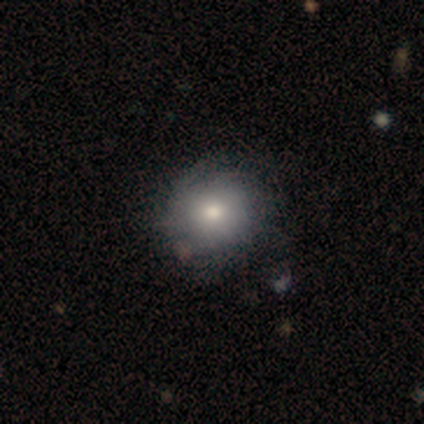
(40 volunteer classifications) Morphology: type=smooth (62%); roundness=round (88%); merging=none (61%).